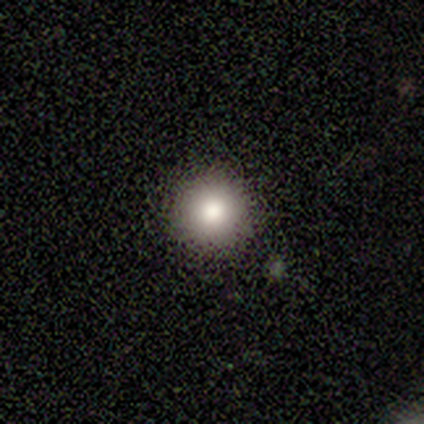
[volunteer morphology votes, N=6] type=smooth (100%); roundness=round (100%); merging=none (83%).